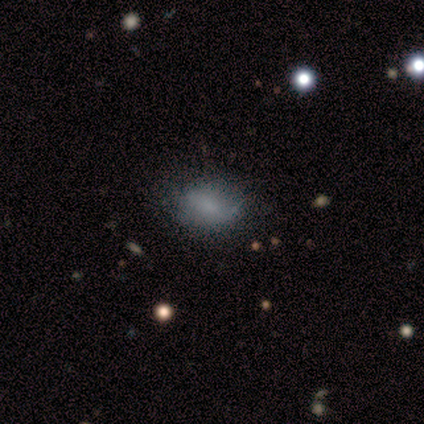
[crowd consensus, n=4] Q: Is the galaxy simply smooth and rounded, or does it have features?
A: smooth — 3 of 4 (75%).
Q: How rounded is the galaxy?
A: in between — 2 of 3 (67%).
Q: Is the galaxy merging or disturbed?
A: none — 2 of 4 (50%).